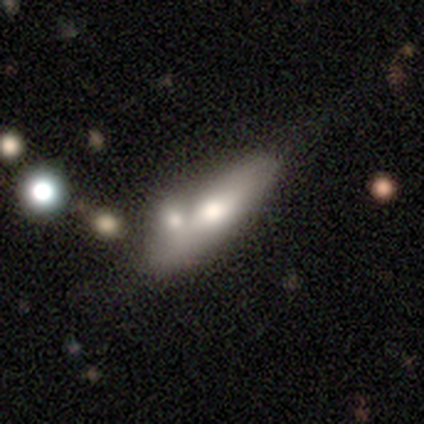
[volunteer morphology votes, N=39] A smooth galaxy with no disk features (56%) that is cigar-shaped (55%). Merging: merger (42%).